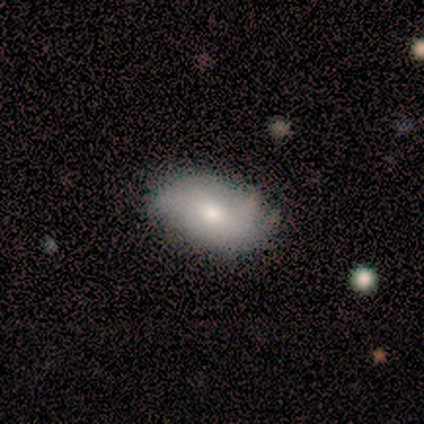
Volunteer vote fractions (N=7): Volunteers were most divided on "merging": minor disturbance: 57%, none: 43%, major disturbance: 0%, merger: 0%. More confident: how rounded — in between (80%); smooth or featured — smooth (71%).